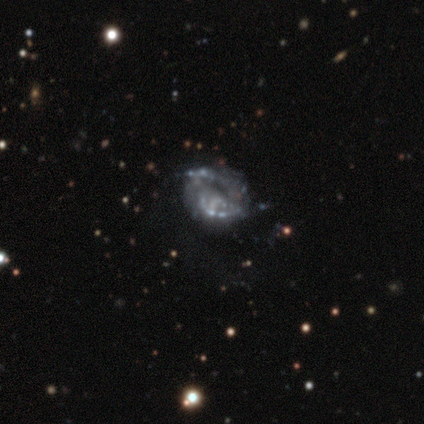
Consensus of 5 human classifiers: Smooth or featured?
  - featured or disk: 100% *
  - smooth: 0%
  - star or artifact: 0%
Edge-on disk?
  - no: 100% *
  - yes: 0%
Bar?
  - no: 100% *
  - strong: 0%
  - weak: 0%
Spiral arms?
  - yes: 60% *
  - no: 40%
Spiral winding?
  - loose: 67% *
  - tight: 33%
  - medium: 0%
Spiral arm count?
  - 2: 100% *
  - 1: 0%
  - 3: 0%
  - 4: 0%
  - more than 4: 0%
  - can't tell: 0%
Bulge size?
  - none: 80% *
  - small: 20%
  - dominant: 0%
  - large: 0%
  - moderate: 0%
Merging?
  - none: 60% *
  - minor disturbance: 20%
  - merger: 20%
  - major disturbance: 0%